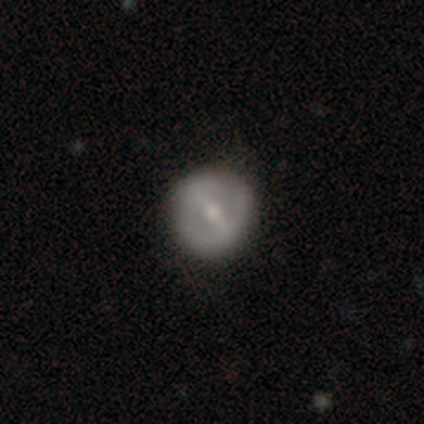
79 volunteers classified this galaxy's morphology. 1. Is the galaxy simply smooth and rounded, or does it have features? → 76% featured or disk, 24% smooth, 0% star or artifact.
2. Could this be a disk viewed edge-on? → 97% no, 3% yes.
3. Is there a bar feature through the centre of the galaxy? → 59% strong, 34% weak, 7% no.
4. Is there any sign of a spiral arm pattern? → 59% yes, 41% no.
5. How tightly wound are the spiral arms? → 53% tight, 26% medium, 21% loose.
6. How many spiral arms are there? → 56% 2, 32% can't tell, 6% 1, 6% 3, 0% 4, 0% more than 4.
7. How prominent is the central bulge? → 50% moderate, 48% small, 2% none, 0% dominant, 0% large.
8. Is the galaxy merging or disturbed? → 41% none, 8% minor disturbance, 3% major disturbance, 1% merger.